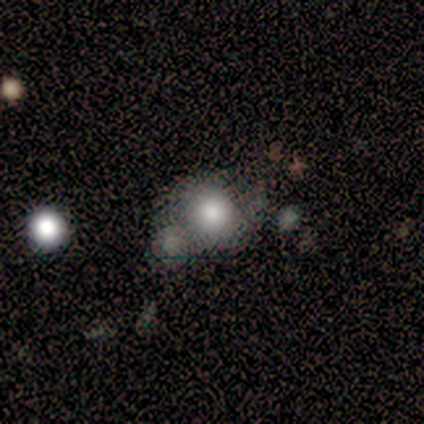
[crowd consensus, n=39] Overall: smooth (77%). How rounded: round (93%). Merging: none (47%; merger 26%).